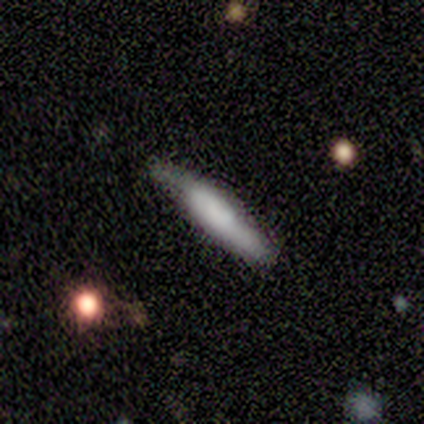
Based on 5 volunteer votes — Morphology: type=smooth (40%, tied with featured or disk); roundness=cigar-shaped (100%); merging=none (75%).